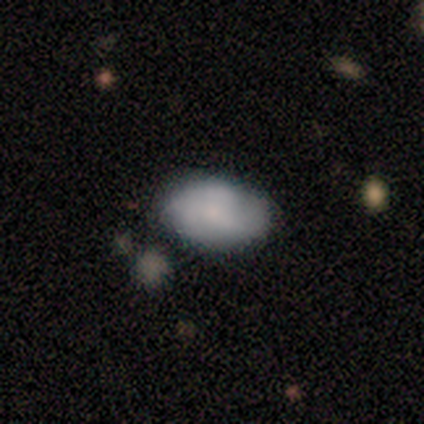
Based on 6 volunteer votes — This appears to be a smooth galaxy with no disk features (67%) that is in between round and cigar-shaped (100%). Merging: none (100%).